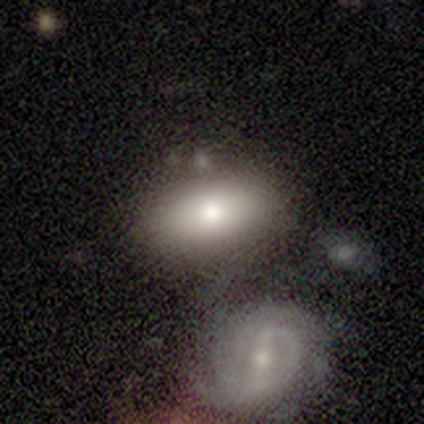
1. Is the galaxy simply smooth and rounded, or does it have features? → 60% smooth, 40% featured or disk, 0% star or artifact.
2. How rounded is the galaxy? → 100% in between, 0% round, 0% cigar-shaped.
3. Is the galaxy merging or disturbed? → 60% none, 20% minor disturbance, 20% major disturbance, 0% merger.